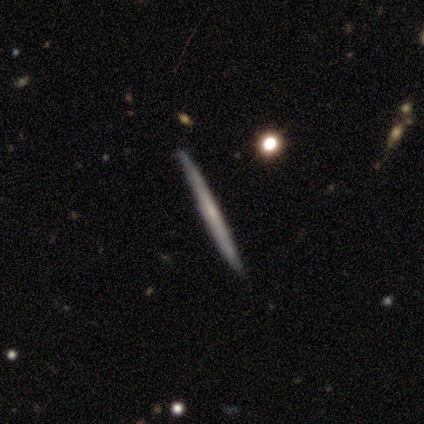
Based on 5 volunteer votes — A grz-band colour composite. It shows a smooth galaxy with no disk features (100%) that is cigar-shaped (100%). Merging: none (100%).